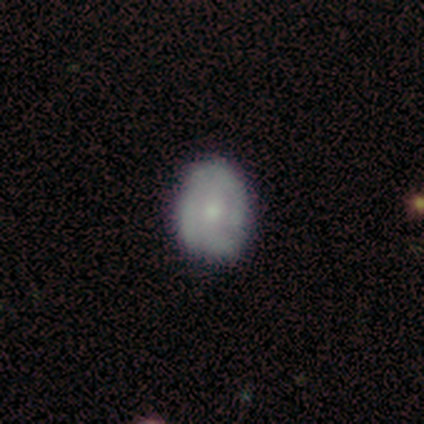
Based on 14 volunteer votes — smooth-or-featured: featured or disk: 50% | smooth: 43% | star or artifact: 7%
  disk-edge-on: no: 100% | yes: 0%
    bar: no: 71% | strong: 14% | weak: 14%
    has-spiral-arms: no: 57% | yes: 43%
    bulge-size: moderate: 43% (tied) | small: 43% (tied) | none: 14% | dominant: 0% | large: 0%
  merging: none: 77% | minor disturbance: 15% | major disturbance: 8% | merger: 0%